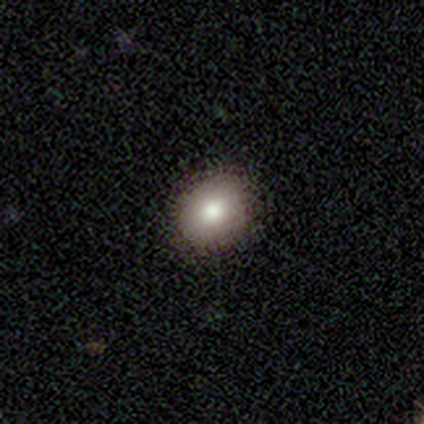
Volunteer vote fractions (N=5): Smooth or featured: smooth — 100%
How rounded: round — 100%
Merging: none — 60% (minor disturbance — 20%)